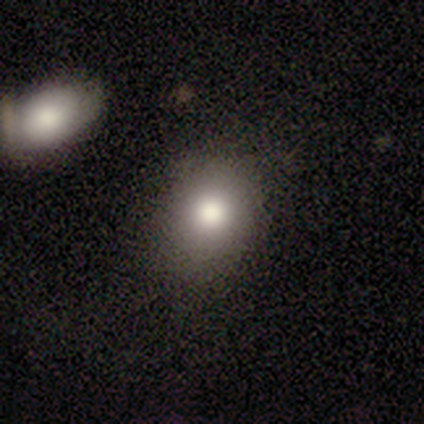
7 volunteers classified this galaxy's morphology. A smooth galaxy with no disk features (86%) that is round (50%, tied with in between). Merging: none (86%).